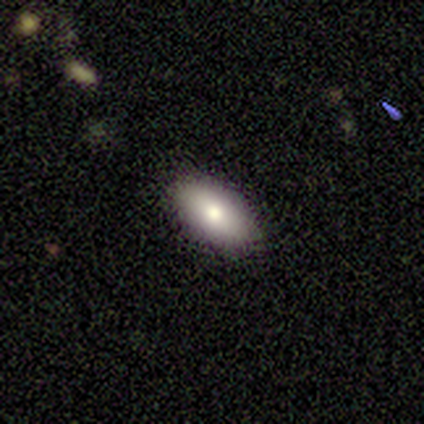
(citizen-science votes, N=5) Smooth or featured?
  - smooth: 80% *
  - featured or disk: 20%
  - star or artifact: 0%
How rounded?
  - in between: 100% *
  - round: 0%
  - cigar-shaped: 0%
Merging?
  - none: 100% *
  - minor disturbance: 0%
  - major disturbance: 0%
  - merger: 0%